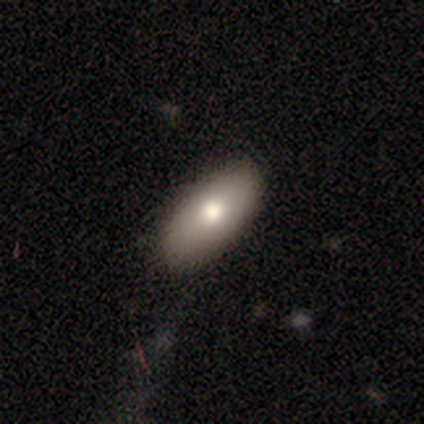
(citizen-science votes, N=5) Q: Smooth or featured?
A: smooth (60%); runner-up: star or artifact (40%)
Q: How rounded?
A: in between (67%); runner-up: cigar-shaped (33%)
Q: Merging?
A: none (100%)